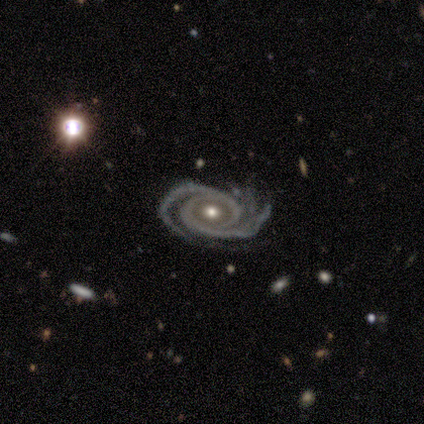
Smooth or featured?
  - featured or disk: 100% *
  - smooth: 0%
  - star or artifact: 0%
Edge-on disk?
  - no: 100% *
  - yes: 0%
Bar?
  - no: 80% *
  - strong: 20%
  - weak: 0%
Spiral arms?
  - yes: 100% *
  - no: 0%
Spiral winding?
  - tight: 80% *
  - medium: 20%
  - loose: 0%
Spiral arm count?
  - 2: 80% *
  - can't tell: 20%
  - 1: 0%
  - 3: 0%
  - 4: 0%
  - more than 4: 0%
Bulge size?
  - moderate: 80% *
  - small: 20%
  - dominant: 0%
  - large: 0%
  - none: 0%
Merging?
  - none: 60% *
  - minor disturbance: 20%
  - major disturbance: 20%
  - merger: 0%